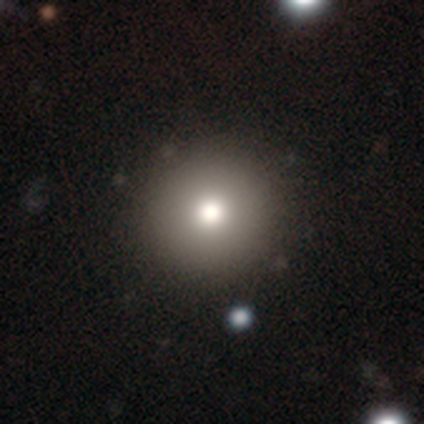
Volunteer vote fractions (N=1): Smooth or featured: smooth — 100%
How rounded: round — 100%
Merging: none — 100%